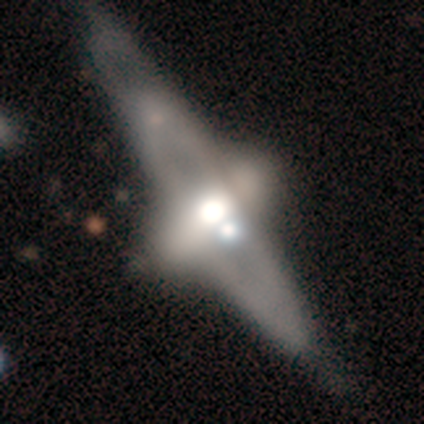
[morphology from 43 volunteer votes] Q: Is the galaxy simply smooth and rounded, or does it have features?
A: featured or disk — 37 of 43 (86%).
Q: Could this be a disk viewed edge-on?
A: no — 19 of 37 (51%).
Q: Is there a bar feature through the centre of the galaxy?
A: no — 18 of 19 (95%).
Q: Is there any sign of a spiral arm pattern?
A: no — 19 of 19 (100%).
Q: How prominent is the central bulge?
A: moderate — 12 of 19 (63%).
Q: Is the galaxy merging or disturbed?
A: none — 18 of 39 (46%).